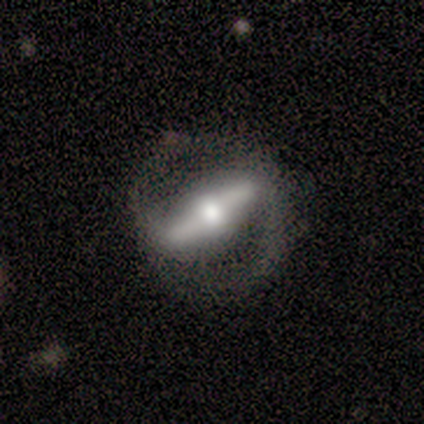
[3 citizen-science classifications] This appears to be a featured or disk galaxy (100%) with a strong bar (100%), 2 (100%) tight (33%, tied with medium and loose) spiral arms (100%) and a moderate central bulge (100%). Merging: none (100%).